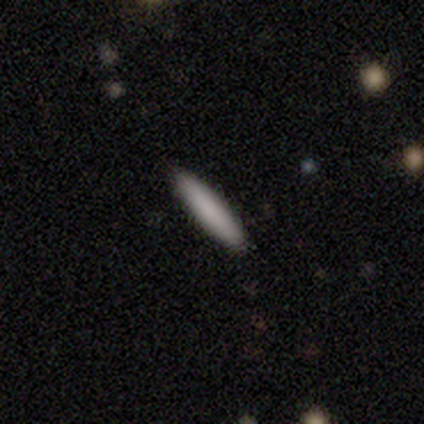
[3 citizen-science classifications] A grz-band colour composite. It shows a smooth galaxy with no disk features (67%) that is cigar-shaped (100%). Merging: none (100%).